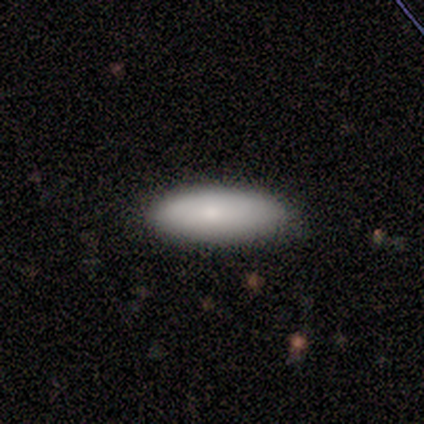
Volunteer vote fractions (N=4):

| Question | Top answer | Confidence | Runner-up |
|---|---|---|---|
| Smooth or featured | smooth | 100% | — |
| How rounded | in between | 100% | — |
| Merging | none | 75% | minor disturbance (25%) |